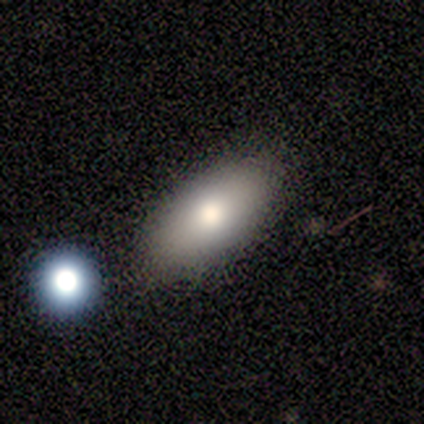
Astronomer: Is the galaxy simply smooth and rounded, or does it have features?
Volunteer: smooth — 100%.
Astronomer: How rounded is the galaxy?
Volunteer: in between — 100%.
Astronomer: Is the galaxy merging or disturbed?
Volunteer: none — 100%.